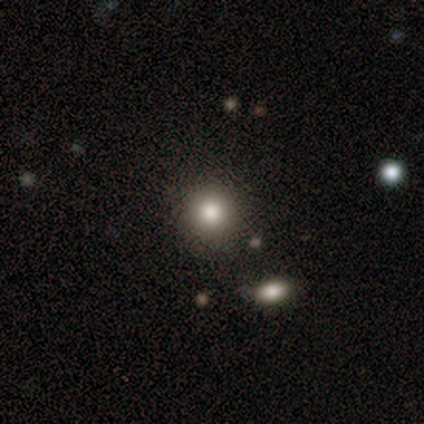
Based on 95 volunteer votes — This appears to be a smooth galaxy with no disk features (84%) that is round (94%). Merging: none (83%).